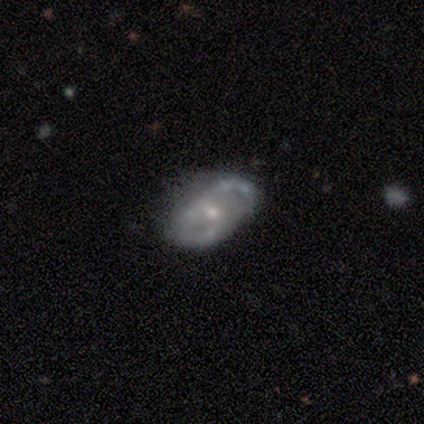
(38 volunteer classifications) Smooth or featured: featured or disk — 76% (smooth — 18%)
Edge-on disk: no — 97% (yes — 3%)
Bar: no — 82% (weak — 18%)
Spiral arms: yes — 61% (no — 39%)
Spiral winding: medium — 53% (tight — 24%)
Spiral arm count: can't tell — 53% (2 — 35%)
Bulge size: small — 71% (moderate — 25%)
Merging: none — 56% (minor disturbance — 25%)